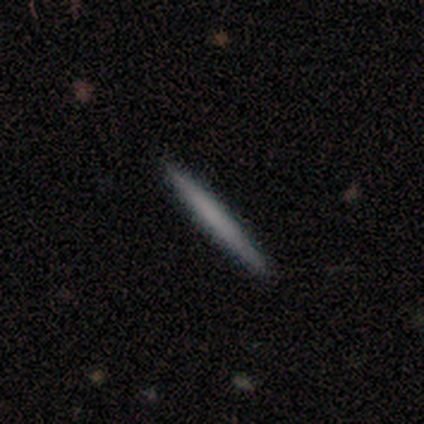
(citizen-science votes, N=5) smooth_or_featured: smooth (p=0.80) [alt: featured or disk p=0.20]
how_rounded: cigar-shaped (p=1.00)
merging: none (p=0.60) [alt: minor disturbance p=0.40]